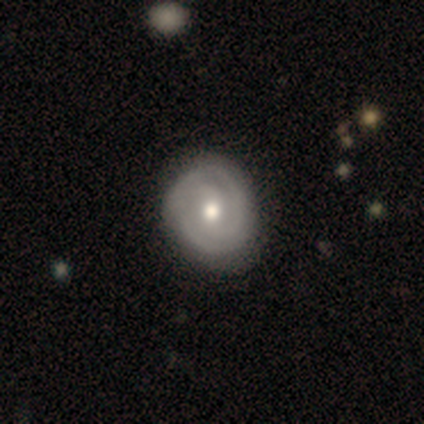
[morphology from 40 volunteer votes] A featured or disk galaxy (82%) with no bar (52%), 2 (71%) tight (79%) spiral arms (90%) and a moderate central bulge (71%). Merging: none (44%).